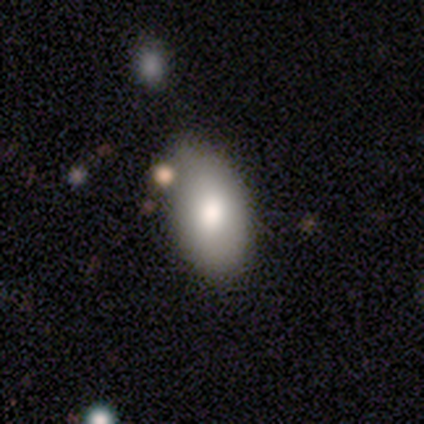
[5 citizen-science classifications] smooth 80%, featured or disk 20%, star or artifact 0%. Down the decision tree: how rounded — in between (100%); merging — none (80%).